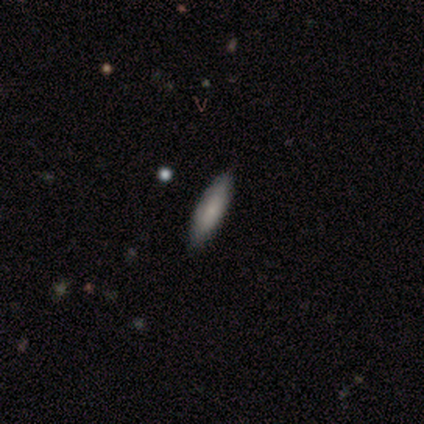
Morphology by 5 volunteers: type=smooth (100%); roundness=cigar-shaped (60%); merging=none (80%).